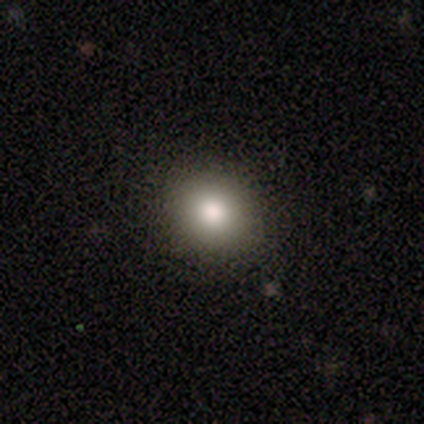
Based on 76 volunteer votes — Smooth or featured? smooth (83%)
How rounded? round (90%)
Merging? none (95%)